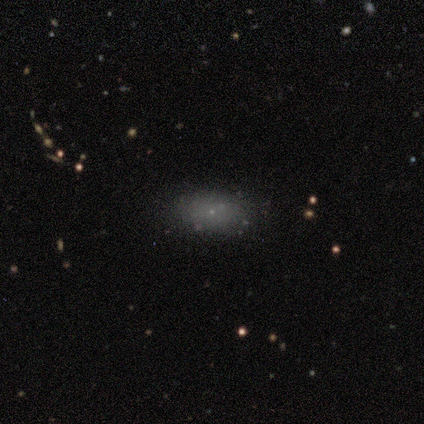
Volunteers were most divided on "merging": none: 75%, major disturbance: 25%, minor disturbance: 0%, merger: 0%. More confident: smooth or featured — smooth (88%); how rounded — in between (71%).